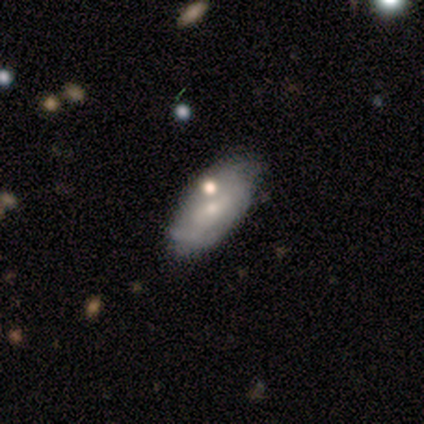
featured or disk 60%, smooth 40%, star or artifact 0%. Down the decision tree: edge-on disk — no (100%); bar — weak (67%); spiral arms — yes (100%); spiral arm count — 2 (67%); spiral winding — loose (67%); bulge size — small (67%); merging — none (60%).